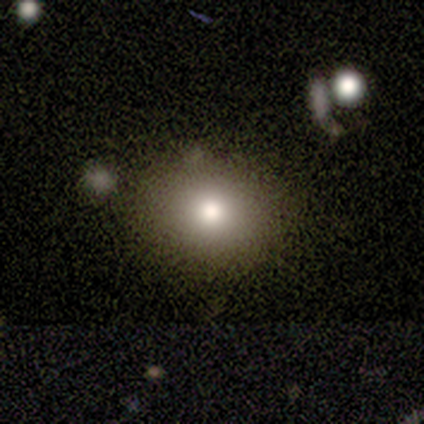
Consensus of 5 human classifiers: Smooth or featured: smooth — 100%
How rounded: in between — 60% (round — 40%)
Merging: none — 80% (minor disturbance — 20%)